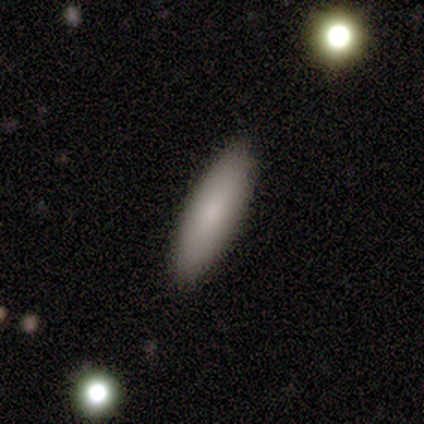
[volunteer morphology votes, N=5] Smooth or featured: smooth — 100%
How rounded: in between — 60% (cigar-shaped — 40%)
Merging: none — 100%